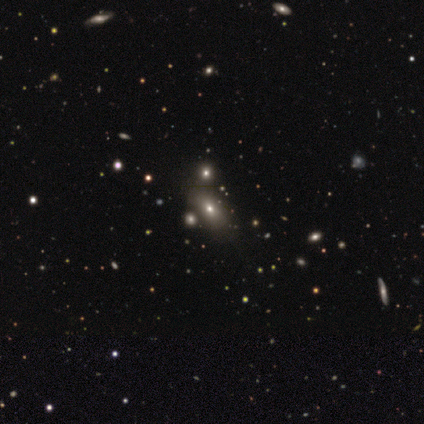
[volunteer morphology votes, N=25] Smooth or featured? smooth (64%)
How rounded? in between (94%)
Merging? none (79%)